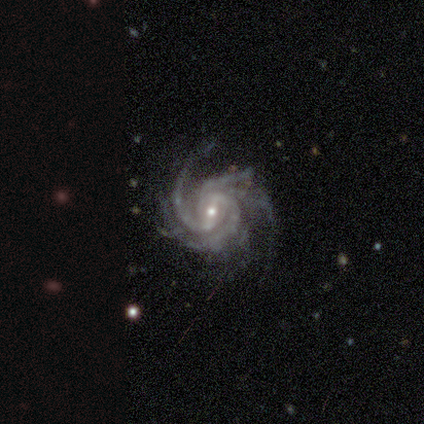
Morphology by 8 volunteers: Q: Smooth or featured?
A: featured or disk (100%)
Q: Edge-on disk?
A: no (100%)
Q: Bar?
A: strong (38%); tied with: weak (38%)
Q: Spiral arms?
A: yes (100%)
Q: Spiral winding?
A: tight (50%); runner-up: medium (25%)
Q: Spiral arm count?
A: 4 (50%); runner-up: 3 (25%)
Q: Bulge size?
A: moderate (50%); tied with: small (50%)
Q: Merging?
A: none (50%); tied with: minor disturbance (50%)